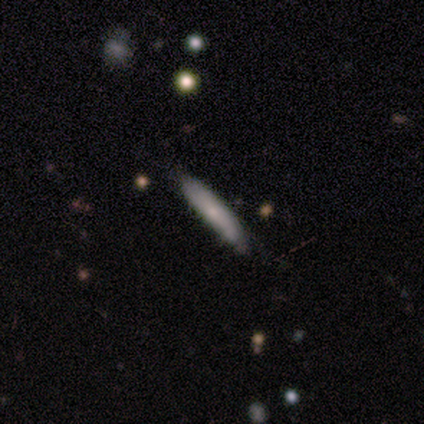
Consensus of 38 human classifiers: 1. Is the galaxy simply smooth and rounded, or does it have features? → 45% smooth (tied), 45% featured or disk (tied), 11% star or artifact.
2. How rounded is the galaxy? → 100% cigar-shaped, 0% round, 0% in between.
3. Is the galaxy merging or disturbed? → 76% none, 18% minor disturbance, 6% major disturbance, 0% merger.